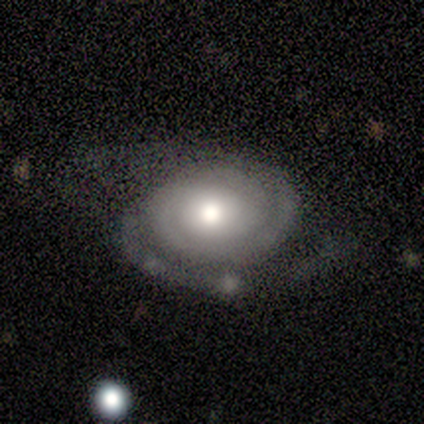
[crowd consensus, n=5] Q: Smooth or featured?
A: featured or disk (100%)
Q: Edge-on disk?
A: no (80%); runner-up: yes (20%)
Q: Bar?
A: no (75%); runner-up: weak (25%)
Q: Spiral arms?
A: yes (100%)
Q: Spiral winding?
A: medium (75%); runner-up: tight (25%)
Q: Spiral arm count?
A: 2 (75%); runner-up: 1 (25%)
Q: Bulge size?
A: moderate (75%); runner-up: small (25%)
Q: Merging?
A: none (60%); runner-up: minor disturbance (20%)